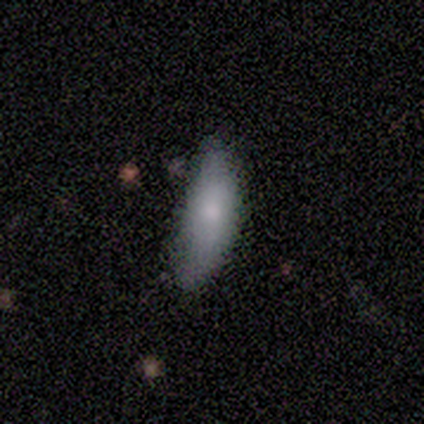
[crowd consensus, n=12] Volunteers were most divided on "merging": minor disturbance: 55%, none: 27%, major disturbance: 18%, merger: 0%. More confident: smooth or featured — smooth (83%); how rounded — in between (80%).